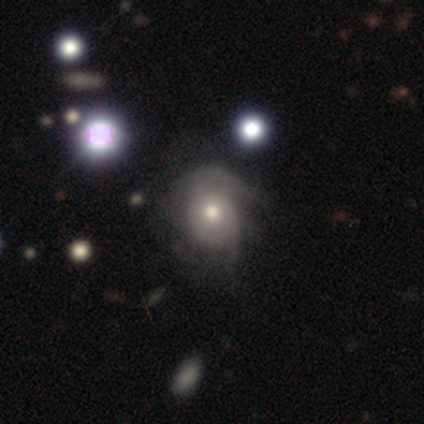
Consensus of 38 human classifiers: This appears to be a featured or disk galaxy (74%) with no bar (96%), medium (42%) spiral arms (86%) and a moderate central bulge (79%). Merging: major disturbance (46%).